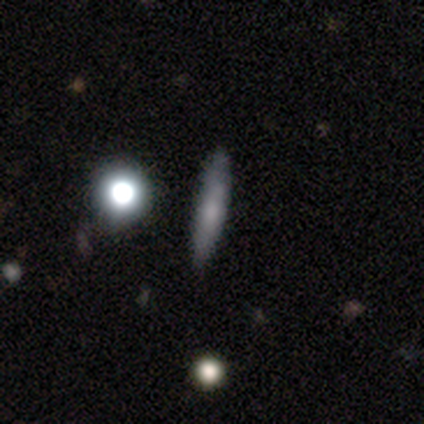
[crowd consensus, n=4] Overall: smooth (75%). How rounded: cigar-shaped (100%). Merging: none (75%).